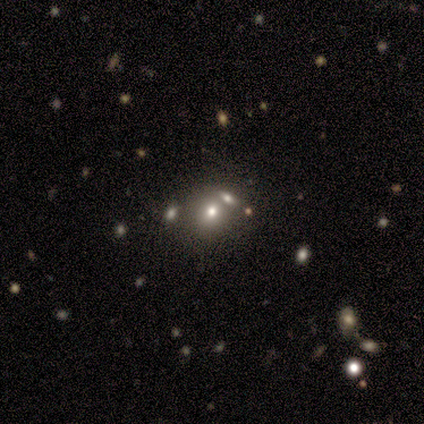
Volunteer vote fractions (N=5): Morphology: type=smooth (60%); roundness=round (100%); merging=none (67%).